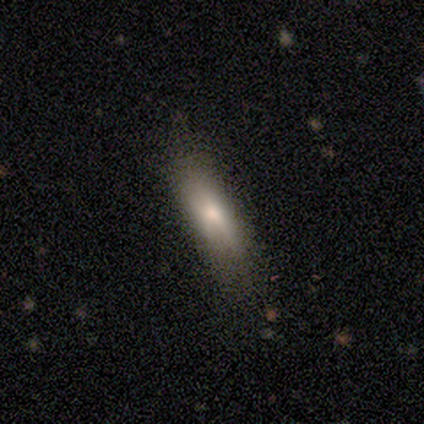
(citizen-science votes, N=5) This is likely a featured or disk galaxy (60%). It is likely viewed edge-on (67%). Edge-on bulge: possibly boxy (50%, tied with rounded). Merging: clearly none (100%).